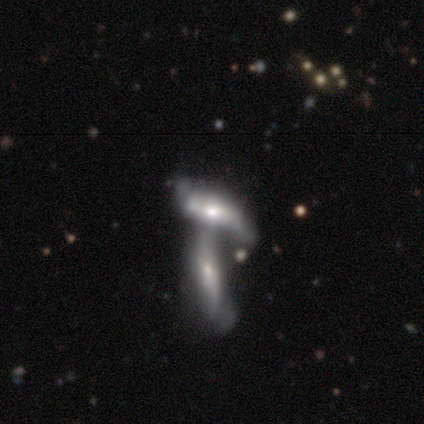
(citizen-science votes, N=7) This is likely a featured or disk galaxy (71%). It is clearly not viewed edge-on (80%). Bar: likely no (75%). Spiral arm pattern: possibly yes (50%, tied with no). Spiral arm count: clearly 2 (100%). Spiral winding: possibly medium (50%, tied with loose). Central bulge: possibly moderate (50%, tied with small). Merging: likely merger (67%).